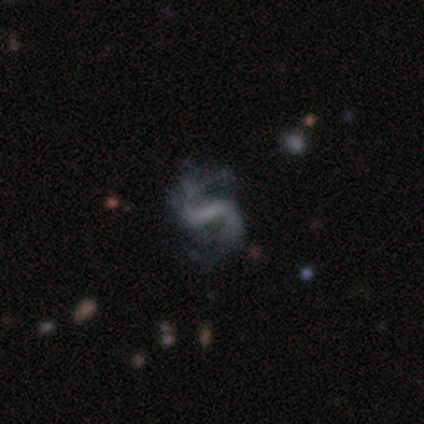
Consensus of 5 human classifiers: Smooth or featured: featured or disk — 100%
Edge-on disk: no — 100%
Bar: strong — 80% (weak — 20%)
Spiral arms: yes — 100%
Spiral winding: loose — 80% (medium — 20%)
Spiral arm count: 2 — 100%
Bulge size: none — 100%
Merging: none — 60% (minor disturbance — 20%)